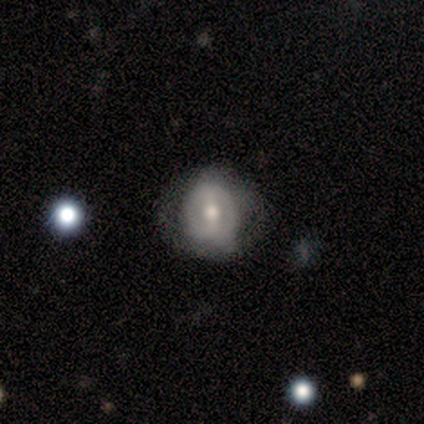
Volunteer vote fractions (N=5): Smooth or featured? smooth (60%)
How rounded? round (100%)
Merging? minor disturbance (60%)